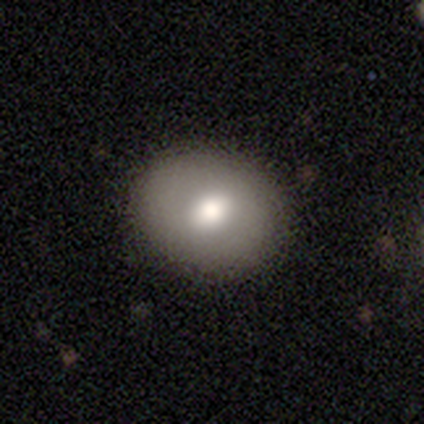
A smooth galaxy with no disk features (100%) that is in between round and cigar-shaped (80%).

Vote fractions:
- Smooth or featured? smooth: 100% / featured or disk: 0% / star or artifact: 0%
- How rounded? in between: 80% / round: 20% / cigar-shaped: 0%
- Merging? none: 100% / minor disturbance: 0% / major disturbance: 0% / merger: 0%